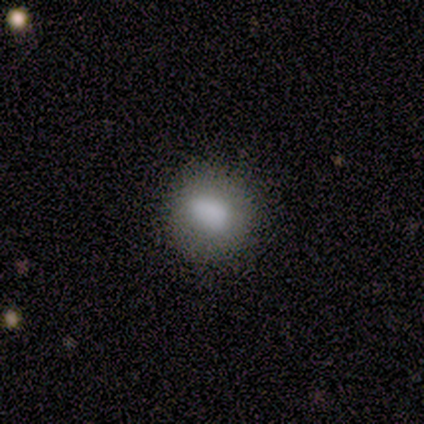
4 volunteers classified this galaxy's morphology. This is clearly a smooth galaxy (100%). How rounded: likely in between (75%). Merging: possibly none (50%, tied with minor disturbance).